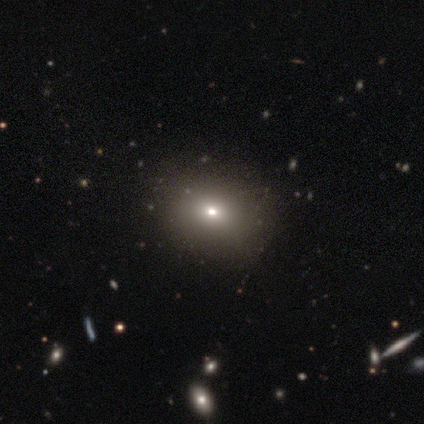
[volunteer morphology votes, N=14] smooth 50%, star or artifact 43%, featured or disk 7%. Down the decision tree: how rounded — round (71%); merging — none (100%).